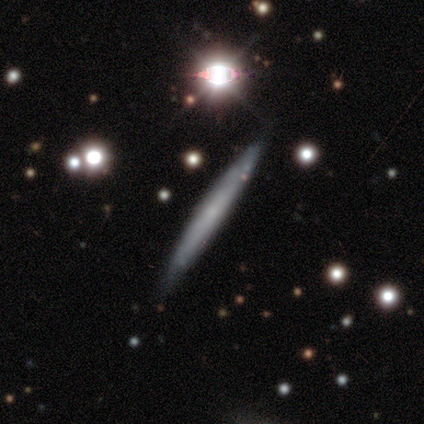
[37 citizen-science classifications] This appears to be a featured or disk galaxy (54%) viewed edge-on (100%) with no central bulge (80%). Merging: none (68%).